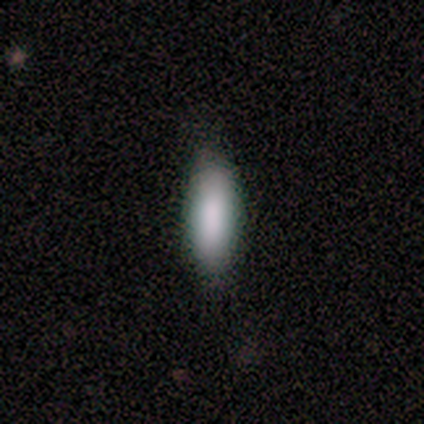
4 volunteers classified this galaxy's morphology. Volunteers were most divided on "how rounded": in between: 75%, cigar-shaped: 25%, round: 0%. More confident: smooth or featured — smooth (100%); merging — none (100%).